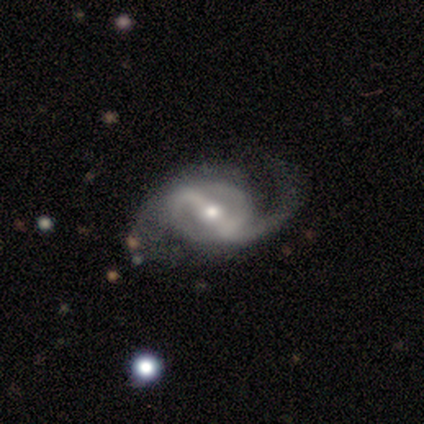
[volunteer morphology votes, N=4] Q: Smooth or featured?
A: featured or disk (75%); runner-up: smooth (25%)
Q: Edge-on disk?
A: no (100%)
Q: Bar?
A: weak (67%); runner-up: strong (33%)
Q: Spiral arms?
A: yes (100%)
Q: Spiral winding?
A: loose (100%)
Q: Spiral arm count?
A: 2 (100%)
Q: Bulge size?
A: moderate (67%); runner-up: small (33%)
Q: Merging?
A: none (75%); runner-up: minor disturbance (25%)